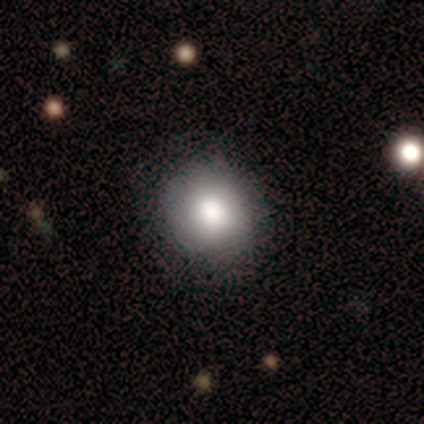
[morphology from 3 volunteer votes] Smooth or featured? 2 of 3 (67%) said featured or disk. Edge-on disk? 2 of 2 (100%) said no. Bar? 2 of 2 (100%) said no. Spiral arms? 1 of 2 (50%, tied with no) said yes. Spiral winding? 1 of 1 (100%) said tight. Spiral arm count? 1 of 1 (100%) said 2. Bulge size? 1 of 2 (50%, tied with large) said dominant. Merging? 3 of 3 (100%) said none.